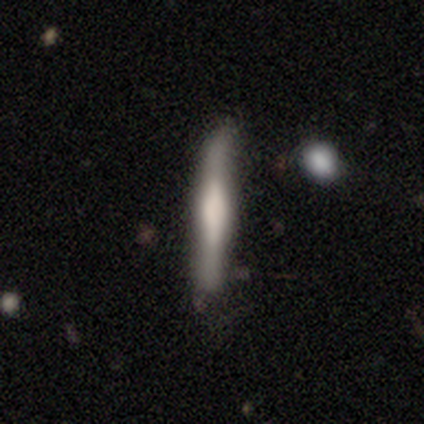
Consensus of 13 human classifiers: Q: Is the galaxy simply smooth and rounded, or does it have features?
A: featured or disk — 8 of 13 (62%).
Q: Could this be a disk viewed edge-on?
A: yes — 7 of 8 (88%).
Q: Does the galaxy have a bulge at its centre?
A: boxy — 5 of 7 (71%).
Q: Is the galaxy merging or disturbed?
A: none — 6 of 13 (46%, tied with minor disturbance).